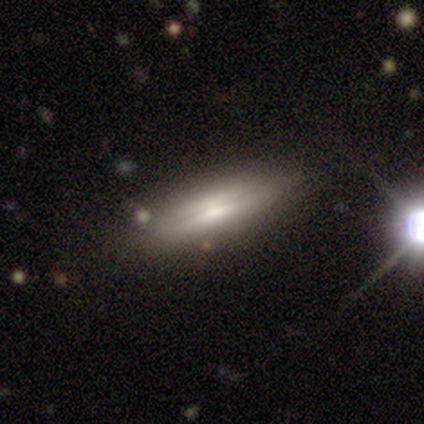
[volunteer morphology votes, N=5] featured or disk 80%, smooth 20%, star or artifact 0%. Down the decision tree: edge-on disk — yes (100%); edge-on bulge — rounded (50%); merging — none (100%).